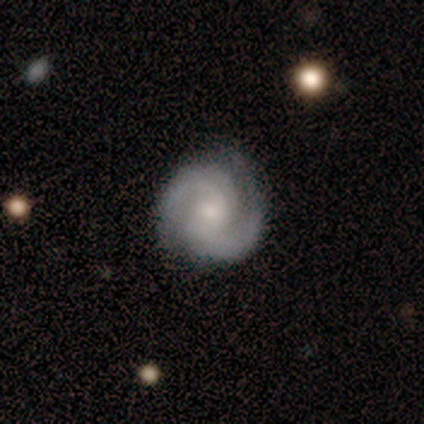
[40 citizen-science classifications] Smooth or featured: featured or disk — 95% (smooth — 2%)
Edge-on disk: no — 100%
Bar: weak — 47% (no — 42%)
Spiral arms: yes — 95% (no — 5%)
Spiral winding: tight — 53% (medium — 36%)
Spiral arm count: 2 — 86% (3 — 8%)
Bulge size: small — 50% (moderate — 37%)
Merging: none — 79% (minor disturbance — 13%)